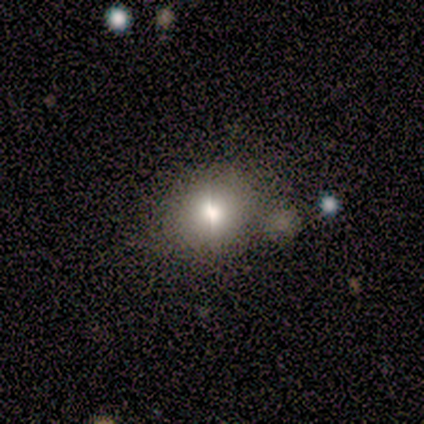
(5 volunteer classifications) Smooth or featured? smooth (60%)
How rounded? round (67%)
Merging? minor disturbance (50%)